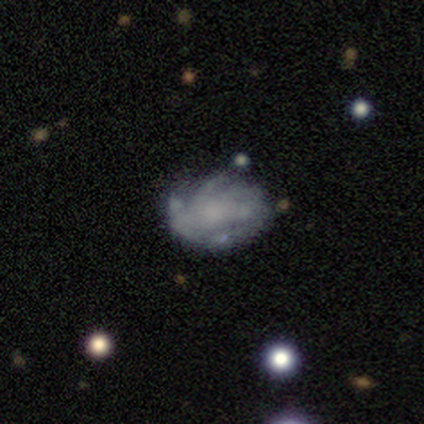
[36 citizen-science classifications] smooth-or-featured: featured or disk: 81% | smooth: 17% | star or artifact: 3%
  disk-edge-on: no: 100% | yes: 0%
    bar: no: 90% | weak: 10% | strong: 0%
    has-spiral-arms: yes: 55% | no: 45%
      spiral-winding: tight: 50% | medium: 44% | loose: 6%
      spiral-arm-count: can't tell: 62% | 3: 19% | more than 4: 12% | 4: 6% | 1: 0% | 2: 0%
    bulge-size: none: 69% | small: 17% | moderate: 10% | large: 3% | dominant: 0%
  merging: none: 46% | minor disturbance: 34% | major disturbance: 17% | merger: 3%